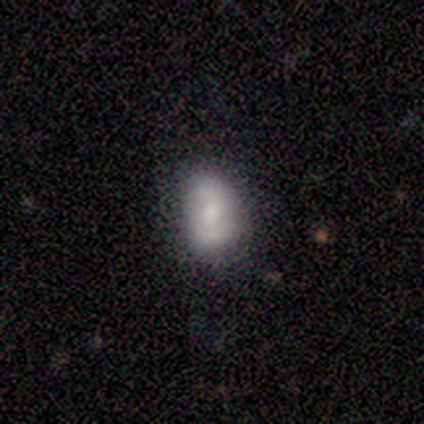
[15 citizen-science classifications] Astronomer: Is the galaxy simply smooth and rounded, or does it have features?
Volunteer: smooth — 67%.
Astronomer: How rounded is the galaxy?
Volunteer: in between — 70%.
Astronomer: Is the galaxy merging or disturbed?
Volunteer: none — 50% (runner-up: minor disturbance, 29%).